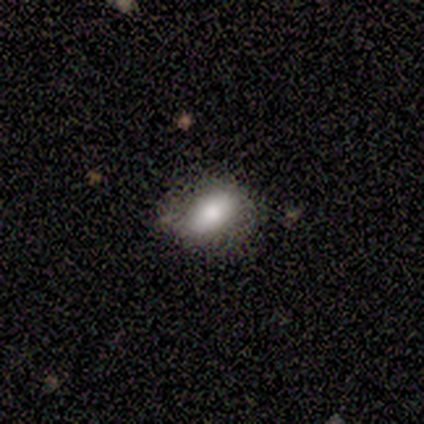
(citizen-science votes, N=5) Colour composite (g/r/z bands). It shows a smooth galaxy with no disk features (80%) that is in between round and cigar-shaped (100%). Merging: none (40%, tied with minor disturbance).